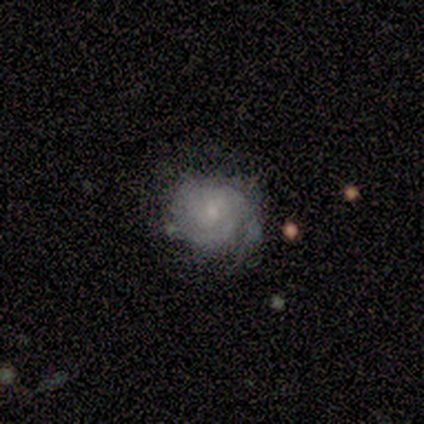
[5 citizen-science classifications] smooth_or_featured: featured or disk (p=0.80) [alt: smooth p=0.20]
disk_edge_on: no (p=1.00)
bar: no (p=1.00)
has_spiral_arms: yes (p=1.00)
spiral_winding: tight (p=0.50) [tied with: medium p=0.50]
spiral_arm_count: 1 (p=0.50) [alt: 2 p=0.25]
bulge_size: small (p=0.75) [alt: moderate p=0.25]
merging: none (p=0.80) [alt: minor disturbance p=0.20]